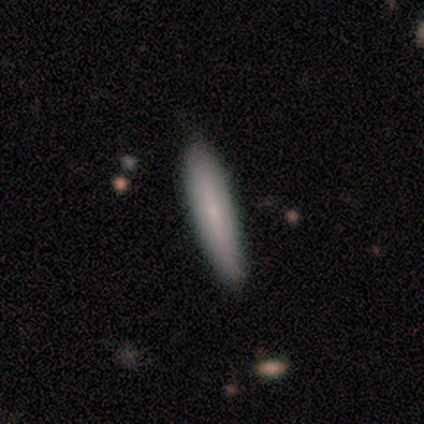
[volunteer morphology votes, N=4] smooth 50%, featured or disk 25%, star or artifact 25%. Down the decision tree: how rounded — cigar-shaped (100%); merging — none (100%).